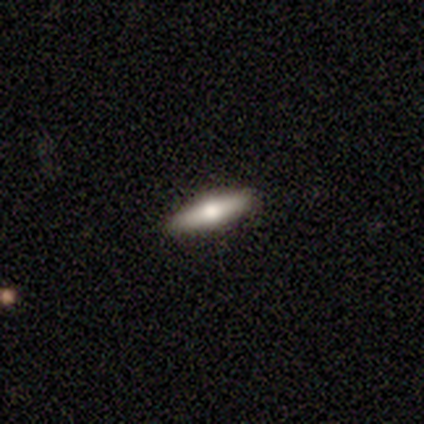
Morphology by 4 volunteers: Smooth or featured? 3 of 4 (75%) said smooth. How rounded? 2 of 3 (67%) said in between. Merging? 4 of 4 (100%) said none.